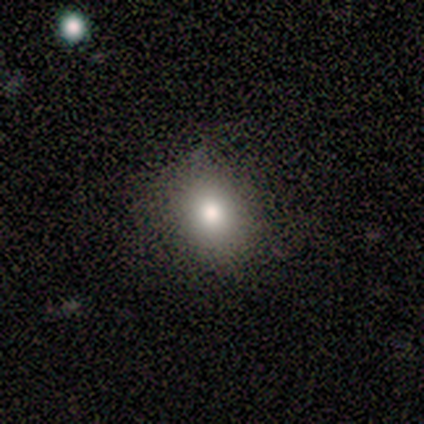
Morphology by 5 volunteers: This appears to be a smooth galaxy with no disk features (60%) that is in between round and cigar-shaped (100%). Merging: none (100%).